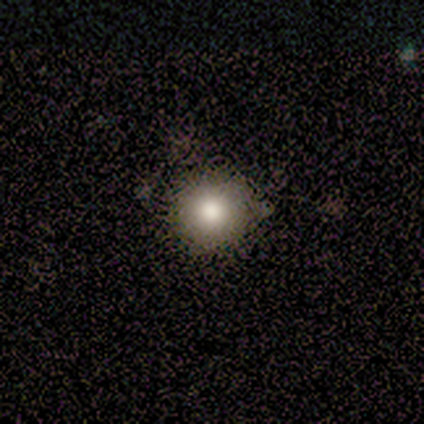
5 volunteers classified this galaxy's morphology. smooth 100%, featured or disk 0%, star or artifact 0%. Down the decision tree: how rounded — round (100%); merging — none (80%).